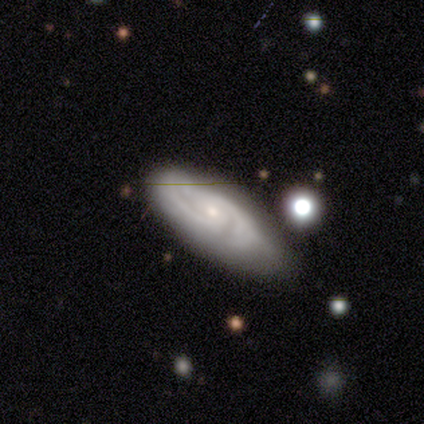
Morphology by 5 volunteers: A featured or disk galaxy (100%) with no bar (50%), 2 (50%) tight (50%, tied with medium) spiral arms (100%) and a moderate central bulge (50%). Merging: none (60%).